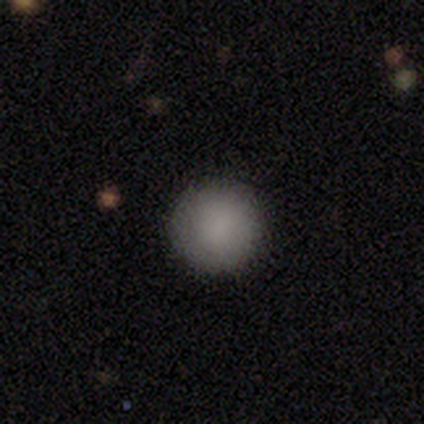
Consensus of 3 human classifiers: smooth_or_featured: smooth (p=1.00)
how_rounded: round (p=1.00)
merging: none (p=1.00)